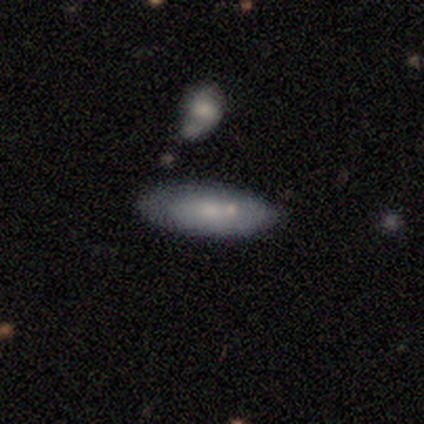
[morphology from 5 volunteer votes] A smooth galaxy with no disk features (80%) that is in between round and cigar-shaped (75%).

Vote fractions:
- Smooth or featured? smooth: 80% / featured or disk: 20% / star or artifact: 0%
- How rounded? in between: 75% / cigar-shaped: 25% / round: 0%
- Merging? none: 60% / minor disturbance: 40% / major disturbance: 0% / merger: 0%